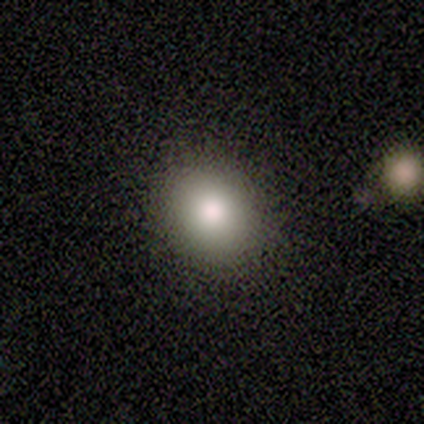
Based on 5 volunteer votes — A smooth galaxy with no disk features (100%) that is round (100%). Merging: none (100%).